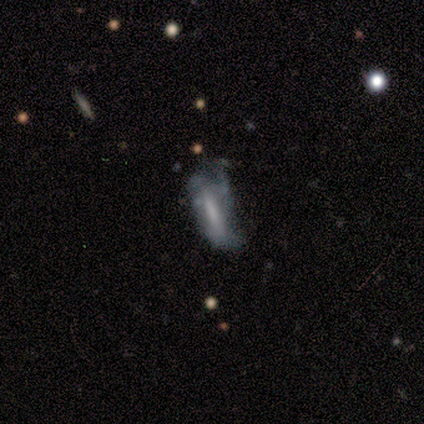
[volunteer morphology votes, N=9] This appears to be a featured or disk galaxy (44%) viewed edge-on (50%, tied with no) with a boxy central bulge (100%). Merging: none (67%).